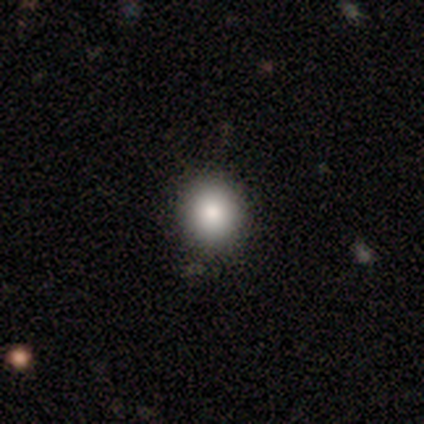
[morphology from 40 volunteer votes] A smooth galaxy with no disk features (78%) that is round (90%).

Vote fractions:
- Smooth or featured? smooth: 78% / star or artifact: 12% / featured or disk: 10%
- How rounded? round: 90% / in between: 10% / cigar-shaped: 0%
- Merging? none: 80% / minor disturbance: 17% / major disturbance: 3% / merger: 0%